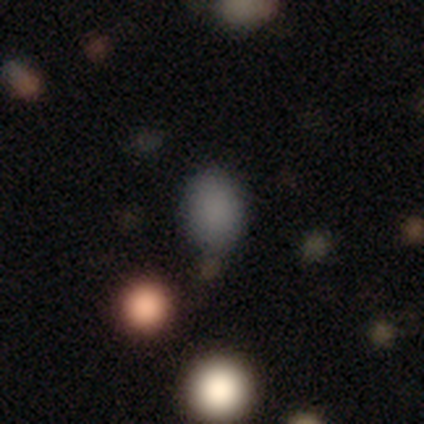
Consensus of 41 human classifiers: Smooth or featured: smooth — 80% (star or artifact — 17%)
How rounded: in between — 64% (round — 33%)
Merging: none — 85% (minor disturbance — 12%)